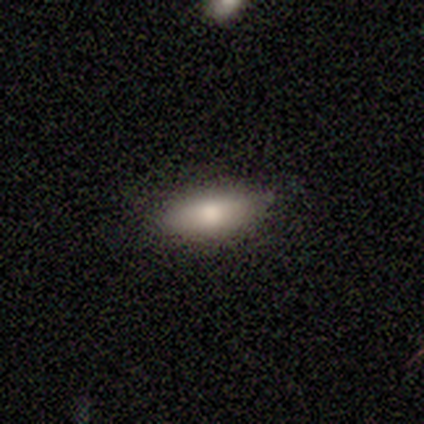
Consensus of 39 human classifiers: Morphology: type=smooth (72%); roundness=in between (79%); merging=none (86%).